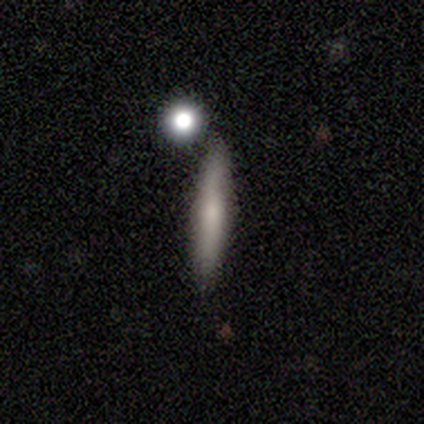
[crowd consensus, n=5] A smooth galaxy with no disk features (100%) that is cigar-shaped (80%). Merging: none (60%).